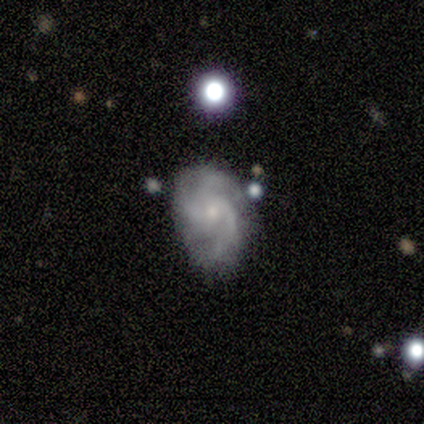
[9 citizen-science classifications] A featured or disk galaxy (78%) with a weak bar (67%), 3 (50%, tied with can't tell) medium (67%) spiral arms (100%) and a small central bulge (67%). Merging: none (67%).